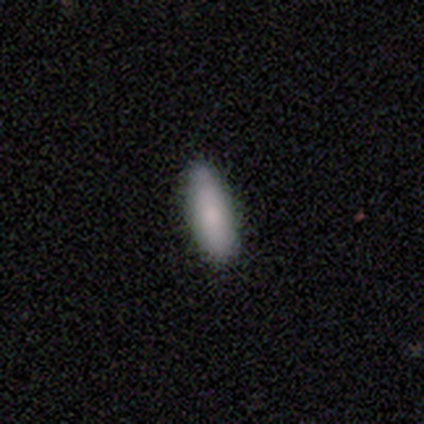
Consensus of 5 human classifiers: smooth-or-featured: smooth: 100% | featured or disk: 0% | star or artifact: 0%
  how-rounded: in between: 60% | cigar-shaped: 40% | round: 0%
  merging: none: 80% | major disturbance: 20% | minor disturbance: 0% | merger: 0%